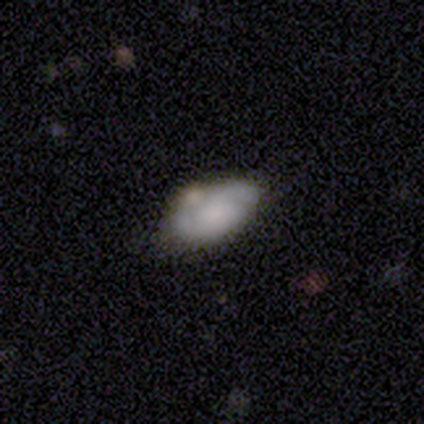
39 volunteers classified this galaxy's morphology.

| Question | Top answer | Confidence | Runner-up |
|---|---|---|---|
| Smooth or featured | featured or disk | 51% | smooth (38%) |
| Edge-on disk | no | 95% | yes (5%) |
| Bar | no | 84% | weak (16%) |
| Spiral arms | yes | 74% | no (26%) |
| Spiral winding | tight | 36% | tied: medium (36%) |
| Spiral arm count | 2 | 86% | can't tell (14%) |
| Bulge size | none | 68% | large (16%) |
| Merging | none | 51% | minor disturbance (17%) |